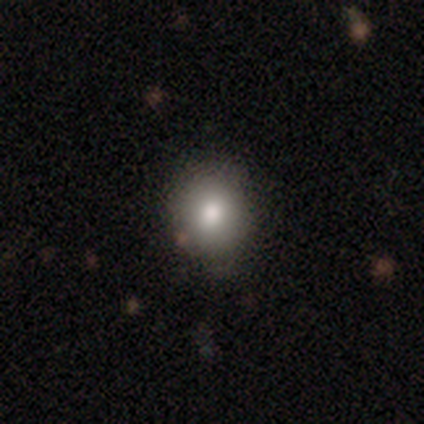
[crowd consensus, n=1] A smooth galaxy with no disk features (100%) that is in between round and cigar-shaped (100%). Merging: none (100%).